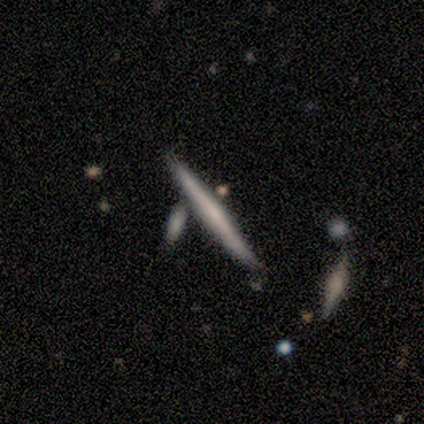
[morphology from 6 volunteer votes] This is possibly a smooth galaxy (50%, tied with featured or disk). How rounded: clearly cigar-shaped (100%). Merging: clearly none (83%).